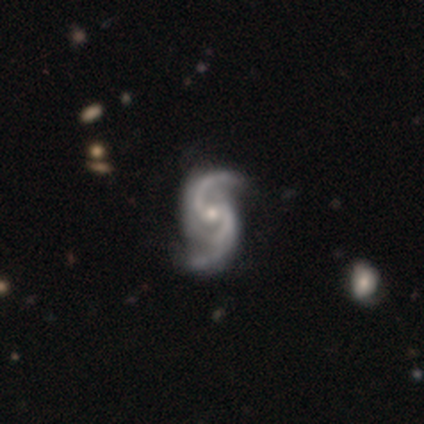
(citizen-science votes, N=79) Smooth or featured?
  - featured or disk: 97% *
  - star or artifact: 3%
  - smooth: 0%
Edge-on disk?
  - no: 99% *
  - yes: 1%
Bar?
  - weak: 49% *
  - no: 46%
  - strong: 5%
Spiral arms?
  - yes: 99% *
  - no: 1%
Spiral winding?
  - medium: 49% *
  - loose: 43%
  - tight: 8%
Spiral arm count?
  - 2: 75% *
  - 3: 20%
  - can't tell: 4%
  - 4: 1%
  - 1: 0%
  - more than 4: 0%
Bulge size?
  - small: 55% *
  - moderate: 42%
  - large: 1%
  - none: 1%
  - dominant: 0%
Merging?
  - none: 36% *
  - minor disturbance: 10%
  - merger: 4%
  - major disturbance: 1%